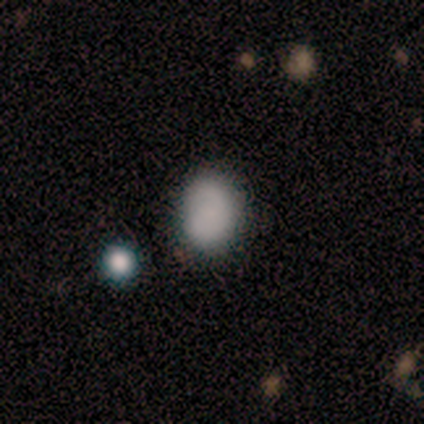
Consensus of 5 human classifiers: A smooth galaxy with no disk features (80%) that is round (75%). Merging: none (100%).